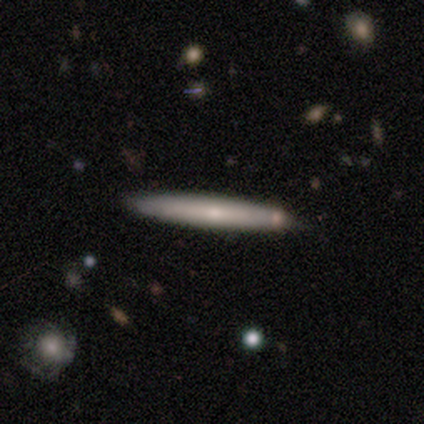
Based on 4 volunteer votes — Volunteers were most divided on "smooth or featured" (2-way tie): smooth: 50%, featured or disk: 50%, star or artifact: 0%. More confident: how rounded — cigar-shaped (100%); merging — none (100%).